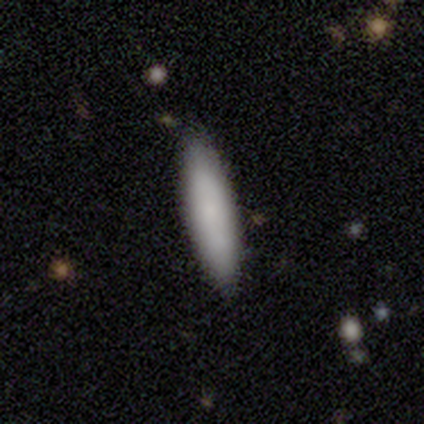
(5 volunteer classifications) Overall: smooth (80%). How rounded: cigar-shaped (100%). Merging: none (75%).